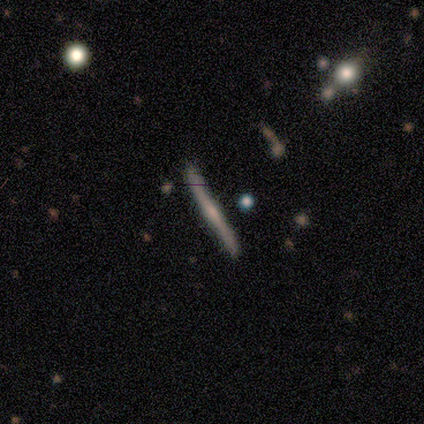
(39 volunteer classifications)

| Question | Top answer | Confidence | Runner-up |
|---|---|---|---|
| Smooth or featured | featured or disk | 72% | smooth (23%) |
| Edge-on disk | yes | 100% | — |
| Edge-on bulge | rounded | 50% | none (32%) |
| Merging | none | 51% | minor disturbance (8%) |